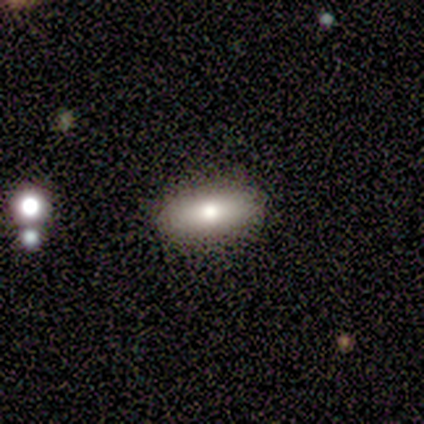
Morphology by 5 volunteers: Smooth or featured: smooth — 100%
How rounded: in between — 60% (cigar-shaped — 40%)
Merging: none — 100%